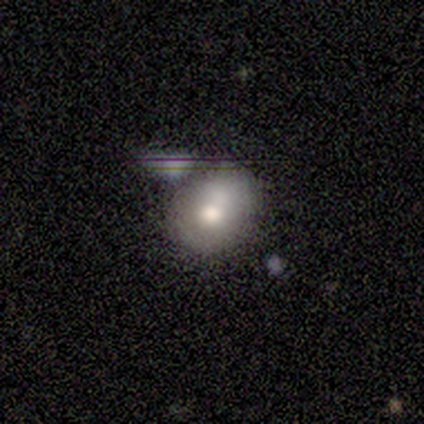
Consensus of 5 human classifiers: Morphology: type=smooth (100%); roundness=round (80%); merging=none (40%, tied with merger).